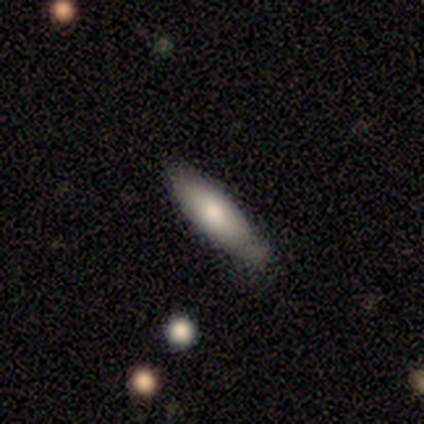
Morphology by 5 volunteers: Smooth or featured? 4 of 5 (80%) said smooth. How rounded? 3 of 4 (75%) said in between. Merging? 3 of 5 (60%) said none.